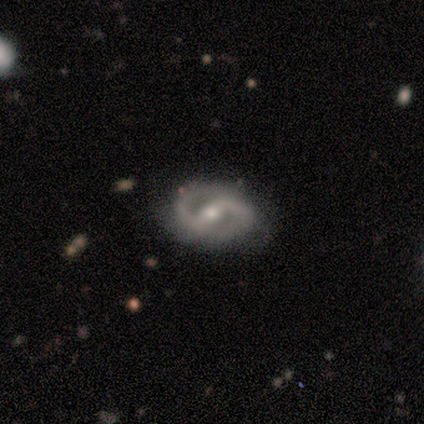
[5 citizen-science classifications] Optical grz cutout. It shows a featured or disk galaxy (100%) with a strong bar (80%), 2 (80%) tight (60%) spiral arms (100%) and a moderate central bulge (80%). Merging: none (80%).